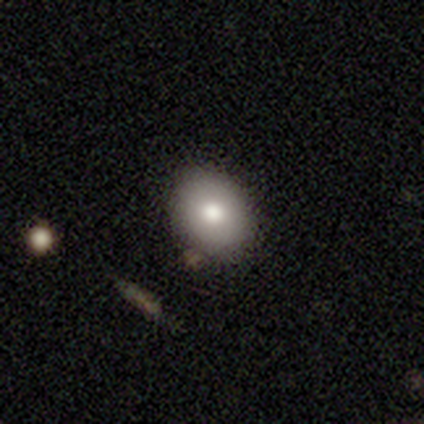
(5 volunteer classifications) smooth-or-featured: smooth: 80% | featured or disk: 20% | star or artifact: 0%
  how-rounded: round: 50% (tied) | in between: 50% (tied) | cigar-shaped: 0%
  merging: none: 60% | minor disturbance: 40% | major disturbance: 0% | merger: 0%